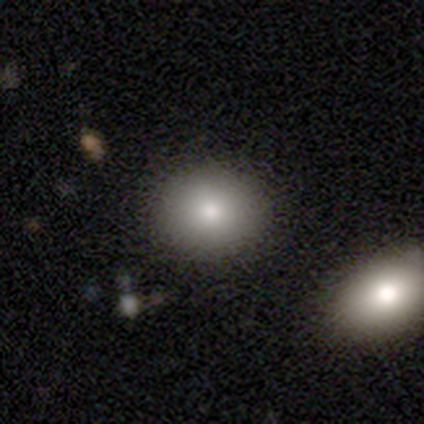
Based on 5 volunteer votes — Smooth or featured: smooth — 80% (featured or disk — 20%)
How rounded: round — 75% (in between — 25%)
Merging: none — 60% (merger — 40%)